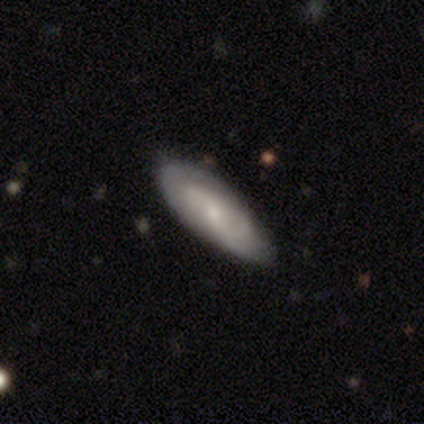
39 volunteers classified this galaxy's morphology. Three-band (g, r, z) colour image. It shows a smooth galaxy with no disk features (49%) that is in between round and cigar-shaped (74%). Merging: none (84%).